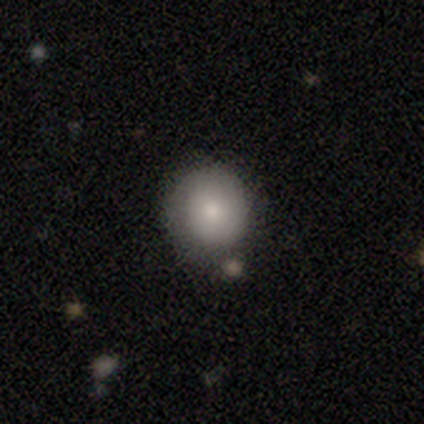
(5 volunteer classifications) Morphology: type=smooth (80%); roundness=round (50%, tied with in between); merging=none (80%).